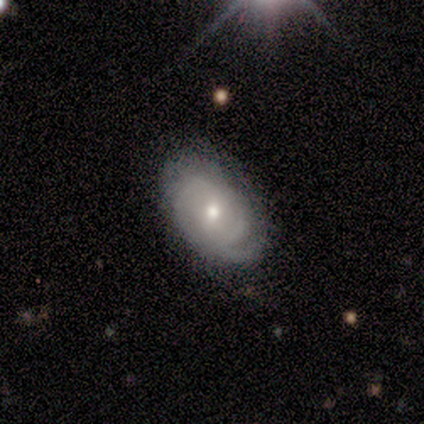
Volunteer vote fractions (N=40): Morphology: type=featured or disk (62%); edge-on=no (96%); bar=weak (50%, tied with no); spiral arms=yes (88%); winding=tight (57%); arm count=2 (43%); bulge=moderate (54%); merging=none (60%).